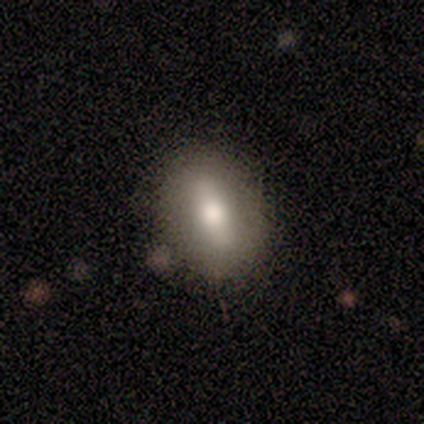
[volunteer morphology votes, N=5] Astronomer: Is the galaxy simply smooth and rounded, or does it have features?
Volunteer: featured or disk — 60% (runner-up: smooth, 40%).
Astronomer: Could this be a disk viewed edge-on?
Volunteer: no — 100%.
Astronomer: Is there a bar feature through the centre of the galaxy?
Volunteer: weak — 67%.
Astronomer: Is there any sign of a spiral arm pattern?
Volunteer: no — 100%.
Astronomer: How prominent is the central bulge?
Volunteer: moderate — 67%.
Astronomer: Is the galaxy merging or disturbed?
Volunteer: none — 80%.